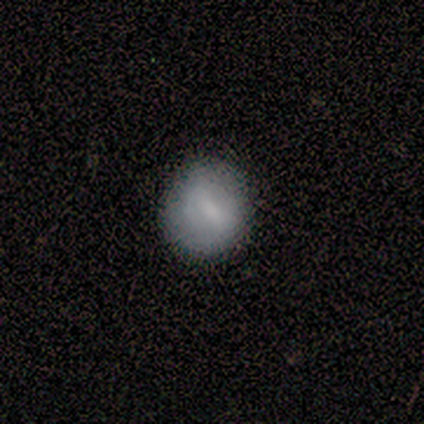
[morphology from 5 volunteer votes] type=smooth (60%); roundness=in between (100%); merging=none (50%, tied with minor disturbance).